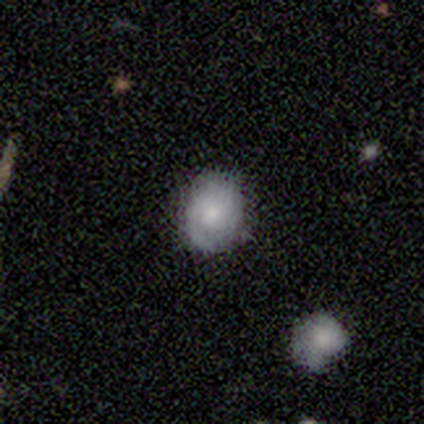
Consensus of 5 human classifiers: Volunteers were most divided on "smooth or featured": smooth: 60%, featured or disk: 40%, star or artifact: 0%. More confident: merging — none (100%); how rounded — round (67%).